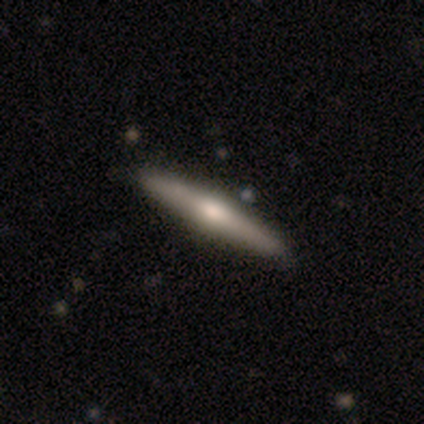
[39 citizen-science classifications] Smooth or featured?
  - featured or disk: 67% *
  - smooth: 33%
  - star or artifact: 0%
Edge-on disk?
  - yes: 100% *
  - no: 0%
Edge-on bulge?
  - rounded: 88% *
  - none: 8%
  - boxy: 4%
Merging?
  - none: 59% *
  - minor disturbance: 3%
  - merger: 3%
  - major disturbance: 0%